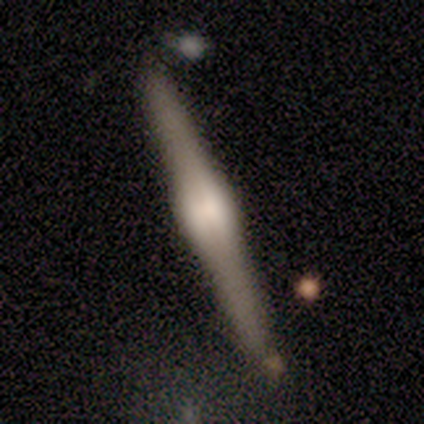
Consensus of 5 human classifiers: Morphology: type=featured or disk (80%); edge-on=yes (100%); edge-on bulge=rounded (75%); merging=none (40%, tied with minor disturbance).